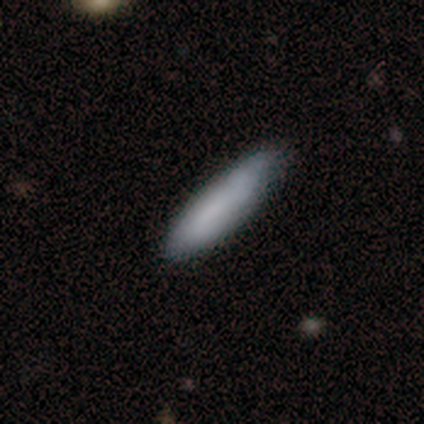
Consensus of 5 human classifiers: Smooth or featured: smooth — 100%
How rounded: cigar-shaped — 100%
Merging: none — 60% (minor disturbance — 20%)